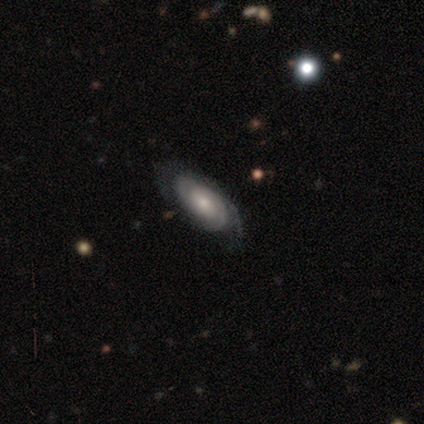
Q: Smooth or featured?
A: featured or disk (80%); runner-up: smooth (20%)
Q: Edge-on disk?
A: no (100%)
Q: Bar?
A: no (50%); runner-up: strong (25%)
Q: Spiral arms?
A: yes (100%)
Q: Spiral winding?
A: tight (75%); runner-up: loose (25%)
Q: Spiral arm count?
A: can't tell (100%)
Q: Bulge size?
A: moderate (75%); runner-up: small (25%)
Q: Merging?
A: none (80%); runner-up: minor disturbance (20%)